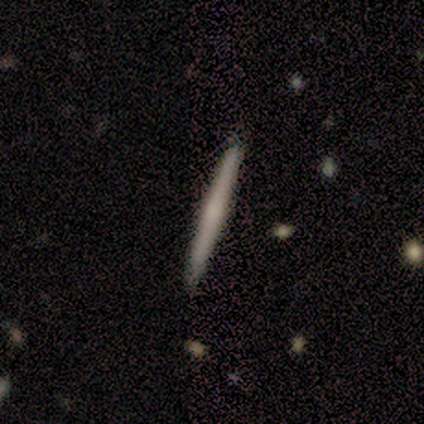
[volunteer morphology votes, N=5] A smooth galaxy with no disk features (80%) that is cigar-shaped (100%).

Vote fractions:
- Smooth or featured? smooth: 80% / featured or disk: 20% / star or artifact: 0%
- How rounded? cigar-shaped: 100% / round: 0% / in between: 0%
- Merging? none: 100% / minor disturbance: 0% / major disturbance: 0% / merger: 0%